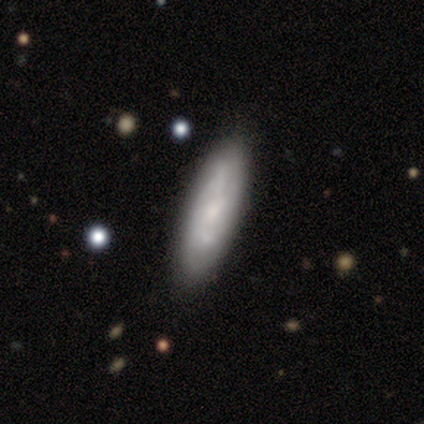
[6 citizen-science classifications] A featured or disk galaxy (83%) with no bar (75%), 2 (75%) medium (50%) spiral arms (100%) and a small central bulge (75%).

Vote fractions:
- Smooth or featured? featured or disk: 83% / star or artifact: 17% / smooth: 0%
- Edge-on disk? no: 80% / yes: 20%
- Bar? no: 75% / weak: 25% / strong: 0%
- Spiral arms? yes: 100% / no: 0%
- Spiral winding? medium: 50% / tight: 25% / loose: 25%
- Spiral arm count? 2: 75% / can't tell: 25% / 1: 0% / 3: 0% / 4: 0% / more than 4: 0%
- Bulge size? small: 75% / moderate: 25% / dominant: 0% / large: 0% / none: 0%
- Merging? none: 100% / minor disturbance: 0% / major disturbance: 0% / merger: 0%